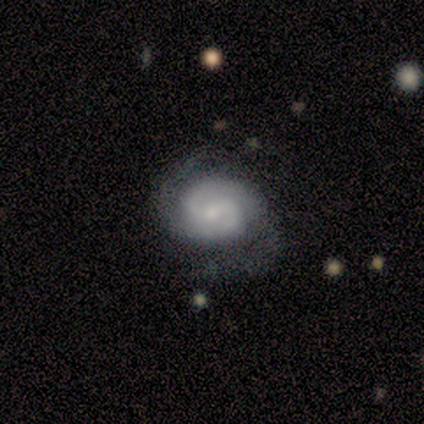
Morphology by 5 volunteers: This appears to be a featured or disk galaxy (80%) with no bar (75%), 2 (75%) tight (75%) spiral arms (100%) and a small central bulge (75%). Merging: none (60%).